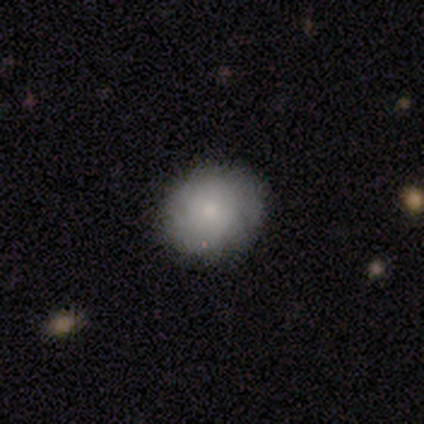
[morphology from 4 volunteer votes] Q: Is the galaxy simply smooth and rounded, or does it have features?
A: smooth — 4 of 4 (100%).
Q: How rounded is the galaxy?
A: round — 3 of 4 (75%).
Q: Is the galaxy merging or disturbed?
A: none — 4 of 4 (100%).